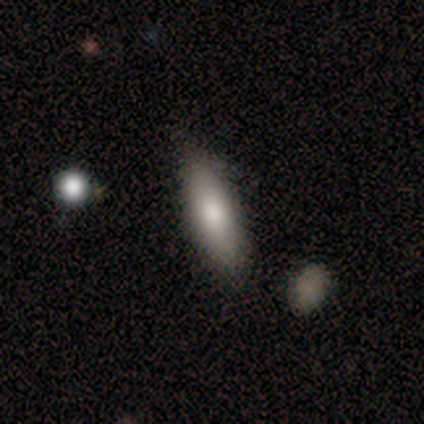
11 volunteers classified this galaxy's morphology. Q: Smooth or featured?
A: smooth (64%); runner-up: featured or disk (27%)
Q: How rounded?
A: cigar-shaped (57%); runner-up: in between (43%)
Q: Merging?
A: none (70%); runner-up: minor disturbance (20%)